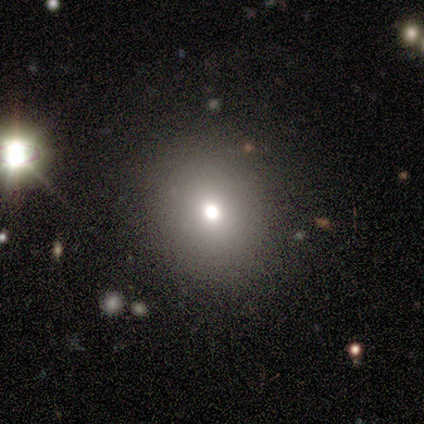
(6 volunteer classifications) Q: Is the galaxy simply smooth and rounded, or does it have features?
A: smooth — 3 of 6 (50%).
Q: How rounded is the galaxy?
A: round — 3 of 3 (100%).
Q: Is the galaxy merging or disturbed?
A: none — 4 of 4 (100%).